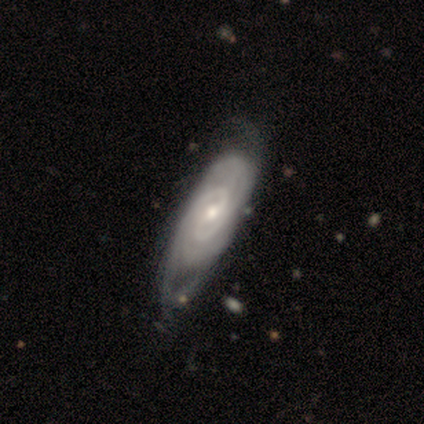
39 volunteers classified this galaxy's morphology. This appears to be a featured or disk galaxy (95%) with no bar (45%), 2 (66%) tight (62%) spiral arms (97%) and a small central bulge (48%). Merging: none (44%).